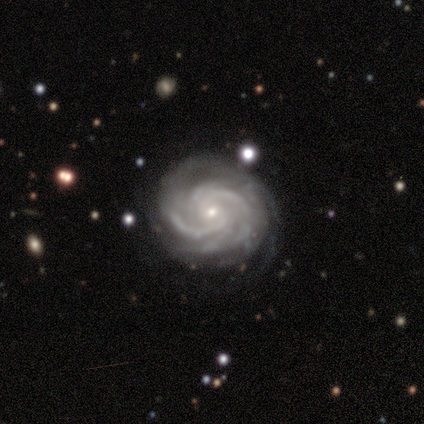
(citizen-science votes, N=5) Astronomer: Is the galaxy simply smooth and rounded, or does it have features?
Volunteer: featured or disk — 100%.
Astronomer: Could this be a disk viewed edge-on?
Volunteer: no — 100%.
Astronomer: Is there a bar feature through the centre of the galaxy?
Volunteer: strong — 60%.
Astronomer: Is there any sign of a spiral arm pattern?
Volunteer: yes — 100%.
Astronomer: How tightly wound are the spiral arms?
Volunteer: medium — 60% (runner-up: tight, 40%).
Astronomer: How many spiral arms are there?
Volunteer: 2 — 20%, tied with 3, 4, more than 4 and can't tell at 20%.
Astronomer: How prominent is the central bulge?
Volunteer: small — 80%.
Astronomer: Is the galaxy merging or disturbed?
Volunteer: none — 100%.